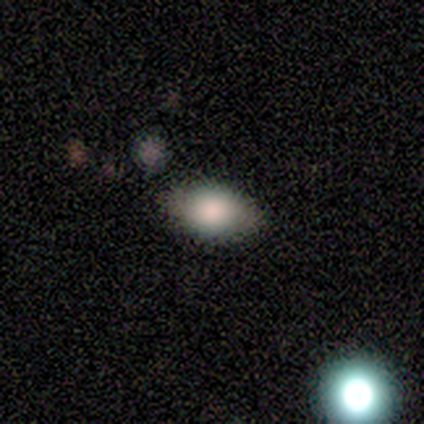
A smooth galaxy with no disk features (100%) that is in between round and cigar-shaped (80%). Merging: none (60%).